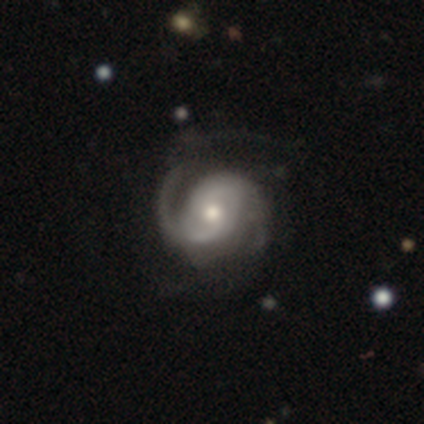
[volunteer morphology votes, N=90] Smooth or featured? 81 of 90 (90%) said featured or disk. Edge-on disk? 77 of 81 (95%) said no. Bar? 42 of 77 (55%) said no. Spiral arms? 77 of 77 (100%) said yes. Spiral winding? 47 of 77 (61%) said medium. Spiral arm count? 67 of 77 (87%) said 2. Bulge size? 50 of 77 (65%) said moderate. Merging? 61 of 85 (72%) said none.